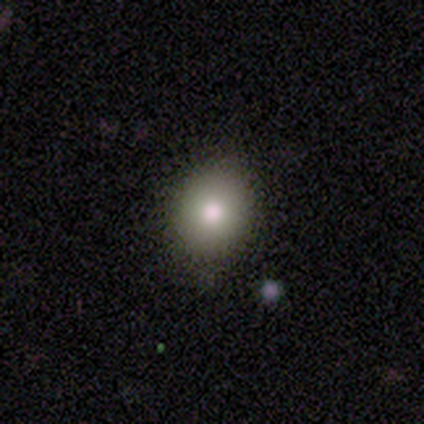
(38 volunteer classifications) Smooth or featured? smooth (71%)
How rounded? round (59%)
Merging? none (88%)